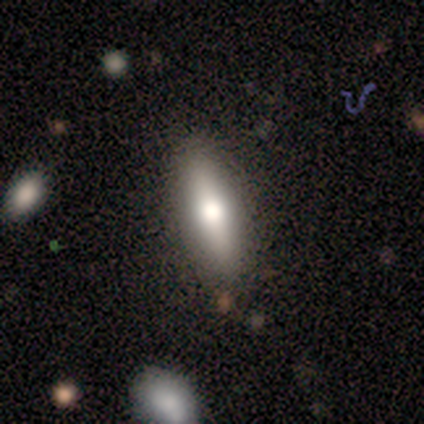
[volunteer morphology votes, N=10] This is likely a smooth galaxy (60%). How rounded: likely in between (67%). Merging: clearly none (80%).